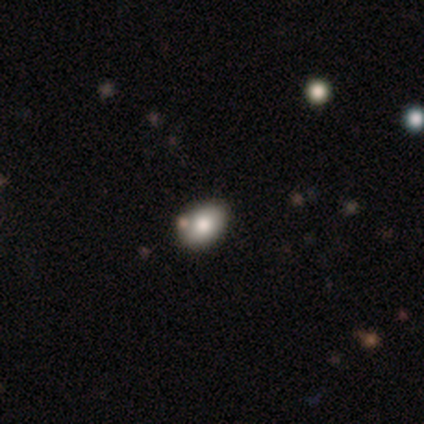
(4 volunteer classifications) Smooth or featured: smooth — 50% (tied with featured or disk — 50%)
How rounded: in between — 100%
Merging: none — 100%